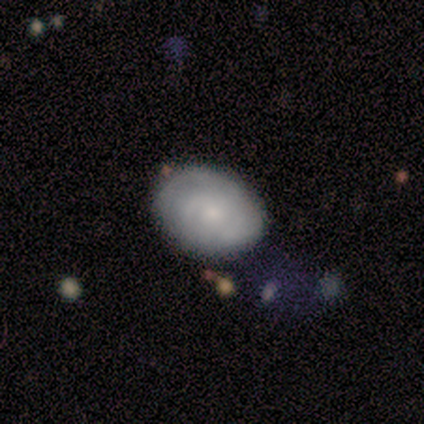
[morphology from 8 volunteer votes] This is clearly a featured or disk galaxy (88%). It is clearly not viewed edge-on (100%). Bar: likely no (71%). Spiral arm pattern: clearly yes (86%). Spiral arm count: marginally 2 (33%, tied with 3 and can't tell). Spiral winding: clearly tight (83%). Central bulge: likely small (71%). Merging: likely none (75%).